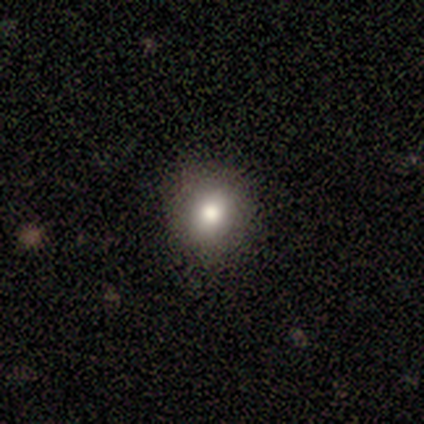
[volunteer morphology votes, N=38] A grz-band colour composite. It shows a smooth galaxy with no disk features (79%) that is round (93%). Merging: none (53%).